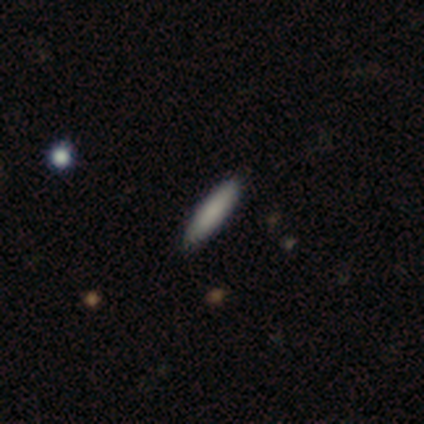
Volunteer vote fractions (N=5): This is clearly a smooth galaxy (80%). How rounded: clearly cigar-shaped (100%). Merging: clearly none (80%).